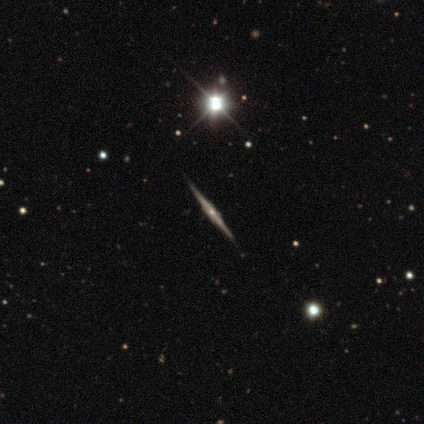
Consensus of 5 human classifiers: Smooth or featured?
  - featured or disk: 80% *
  - star or artifact: 20%
  - smooth: 0%
Edge-on disk?
  - yes: 100% *
  - no: 0%
Edge-on bulge?
  - rounded: 75% *
  - boxy: 25%
  - none: 0%
Merging?
  - none: 75% *
  - merger: 25%
  - minor disturbance: 0%
  - major disturbance: 0%